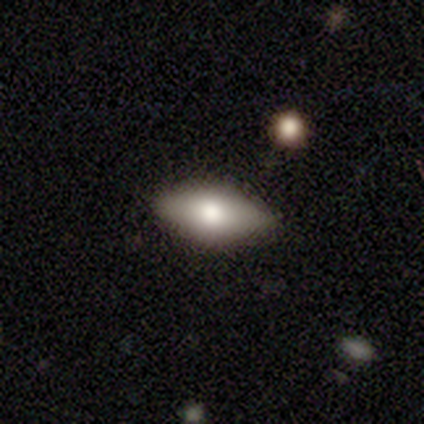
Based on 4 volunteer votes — Volunteers were most divided on "merging": none: 75%, minor disturbance: 25%, major disturbance: 0%, merger: 0%. More confident: smooth or featured — smooth (100%); how rounded — in between (100%).